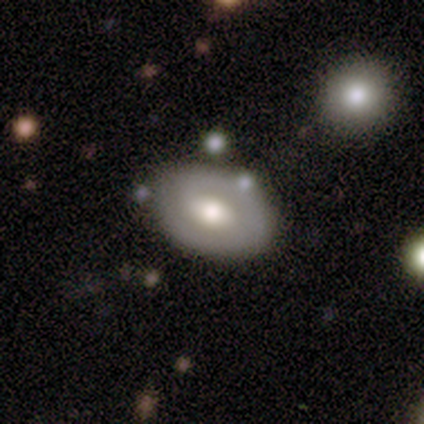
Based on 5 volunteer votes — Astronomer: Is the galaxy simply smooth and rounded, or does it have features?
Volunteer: featured or disk — 60% (runner-up: smooth, 40%).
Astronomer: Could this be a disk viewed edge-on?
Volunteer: no — 100%.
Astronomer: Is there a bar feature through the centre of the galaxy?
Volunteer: no — 67%.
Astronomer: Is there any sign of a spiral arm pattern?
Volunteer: no — 67%.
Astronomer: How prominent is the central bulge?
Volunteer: moderate — 67%.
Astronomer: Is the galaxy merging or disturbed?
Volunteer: none — 80%.